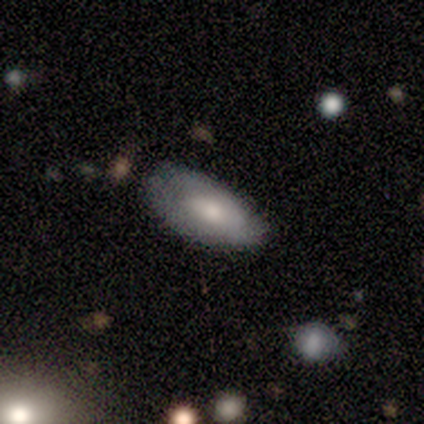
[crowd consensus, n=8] smooth_or_featured: smooth (p=0.75) [alt: featured or disk p=0.25]
how_rounded: in between (p=0.83) [alt: round p=0.17]
merging: none (p=0.75) [alt: minor disturbance p=0.25]